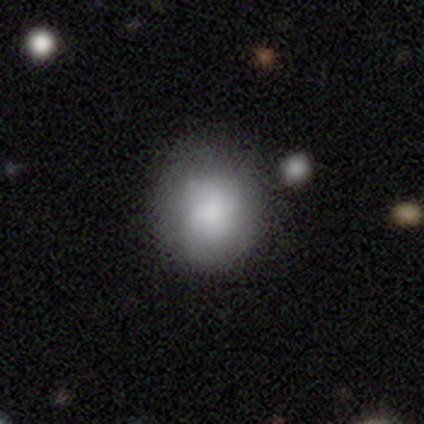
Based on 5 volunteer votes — Morphology: type=smooth (100%); roundness=round (80%); merging=none (80%).